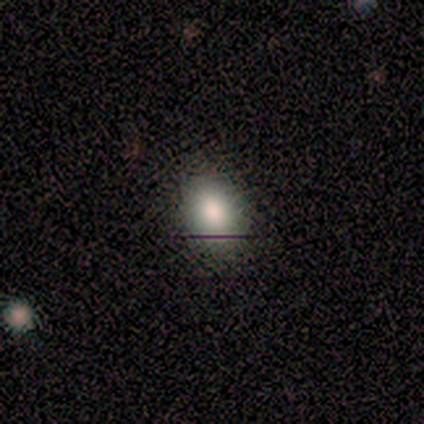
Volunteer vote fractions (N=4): This appears to be a smooth galaxy with no disk features (100%) that is round (50%, tied with in between). Merging: none (75%).